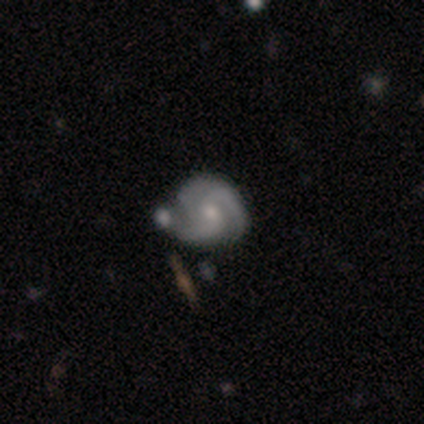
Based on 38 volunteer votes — smooth-or-featured: featured or disk: 92% | smooth: 5% | star or artifact: 3%
  disk-edge-on: no: 97% | yes: 3%
    bar: weak: 56% | no: 44% | strong: 0%
    has-spiral-arms: yes: 97% | no: 3%
      spiral-winding: medium: 48% | tight: 39% | loose: 12%
      spiral-arm-count: 3: 48% | 2: 39% | can't tell: 6% | 1: 3% | 4: 3% | more than 4: 0%
    bulge-size: moderate: 68% | small: 29% | large: 3% | dominant: 0% | none: 0%
  merging: none: 46% | merger: 27% | minor disturbance: 22% | major disturbance: 5%